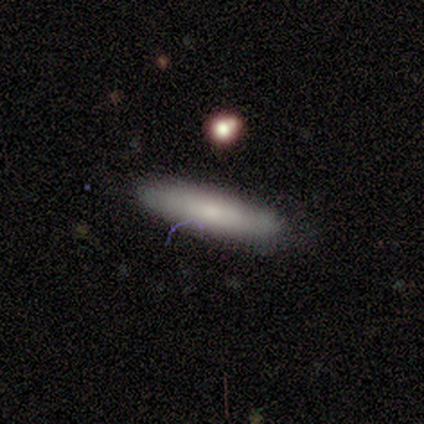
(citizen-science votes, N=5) Volunteers were most divided on "smooth or featured" (2-way tie): smooth: 40%, star or artifact: 40%, featured or disk: 20%. More confident: how rounded — cigar-shaped (100%); merging — none (100%).